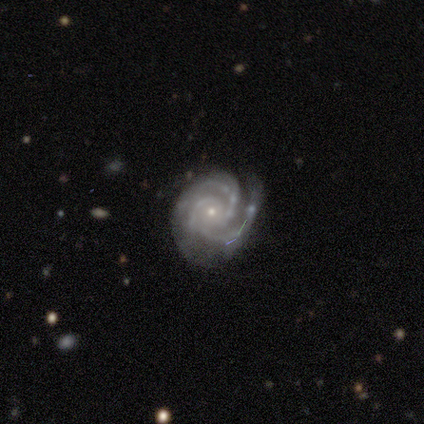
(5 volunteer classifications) Volunteers were most divided on "spiral arm count": 3: 50%, 2: 25%, 4: 25%, 1: 0%, more than 4: 0%, can't tell: 0%. More confident: edge-on disk — no (100%); bar — no (100%); spiral arms — yes (100%); smooth or featured — featured or disk (80%); merging — none (80%); spiral winding — medium (75%); bulge size — small (75%).